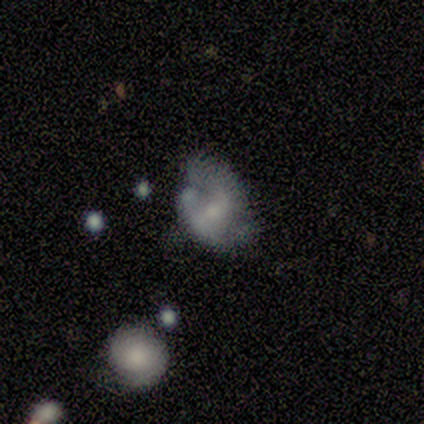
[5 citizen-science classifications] Volunteers were most divided on "merging": minor disturbance: 50%, none: 25%, major disturbance: 25%, merger: 0%. More confident: edge-on disk — no (100%); spiral arms — yes (100%); bar — strong (67%); spiral winding — loose (67%); spiral arm count — can't tell (67%); bulge size — small (67%); smooth or featured — featured or disk (60%).